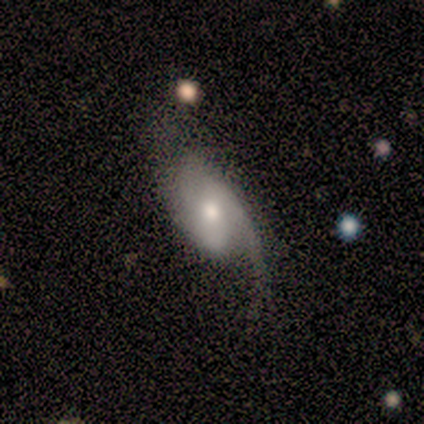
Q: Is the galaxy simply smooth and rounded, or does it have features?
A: featured or disk — 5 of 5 (100%).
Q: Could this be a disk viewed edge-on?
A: no — 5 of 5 (100%).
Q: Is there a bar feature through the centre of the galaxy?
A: weak — 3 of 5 (60%).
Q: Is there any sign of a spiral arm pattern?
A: yes — 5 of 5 (100%).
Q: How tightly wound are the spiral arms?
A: loose — 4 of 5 (80%).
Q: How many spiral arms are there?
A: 1 — 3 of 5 (60%).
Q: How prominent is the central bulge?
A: moderate — 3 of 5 (60%).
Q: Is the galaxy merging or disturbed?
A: major disturbance — 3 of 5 (60%).